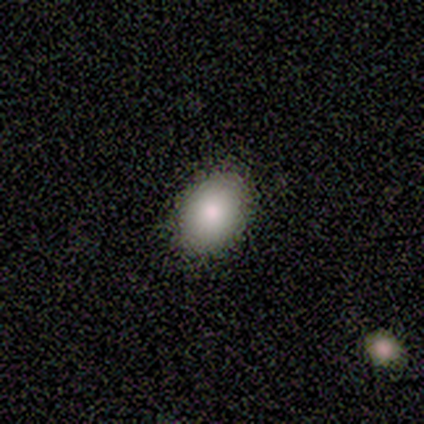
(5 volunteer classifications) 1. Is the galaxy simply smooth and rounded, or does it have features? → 80% smooth, 20% star or artifact, 0% featured or disk.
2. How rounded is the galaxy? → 75% in between, 25% round, 0% cigar-shaped.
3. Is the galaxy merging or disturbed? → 100% none, 0% minor disturbance, 0% major disturbance, 0% merger.